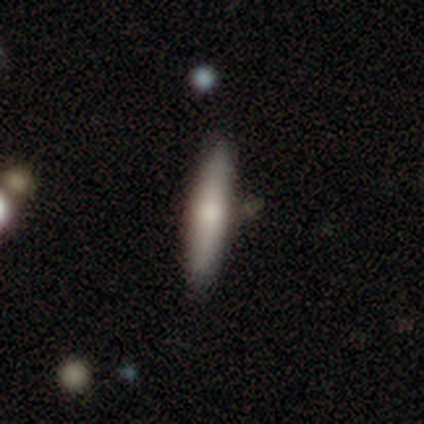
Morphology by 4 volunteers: Smooth or featured: smooth — 50% (tied with featured or disk — 50%)
How rounded: cigar-shaped — 100%
Merging: none — 100%